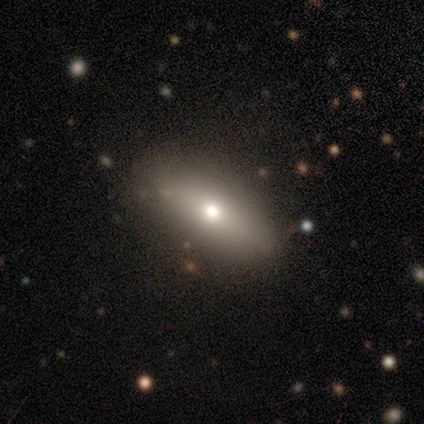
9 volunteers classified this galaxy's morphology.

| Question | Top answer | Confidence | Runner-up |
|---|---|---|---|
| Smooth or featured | featured or disk | 56% | smooth (33%) |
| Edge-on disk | yes | 60% | no (40%) |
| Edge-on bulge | rounded | 100% | — |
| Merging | none | 75% | minor disturbance (25%) |